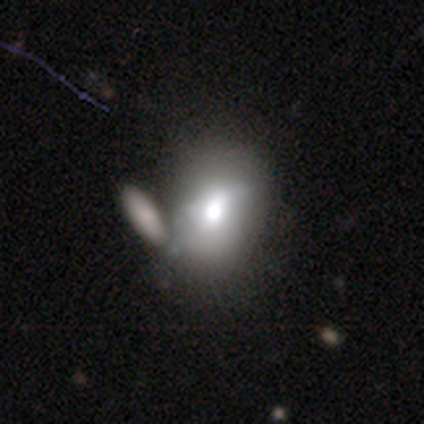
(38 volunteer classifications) Morphology: type=smooth (79%); roundness=in between (70%); merging=merger (42%).